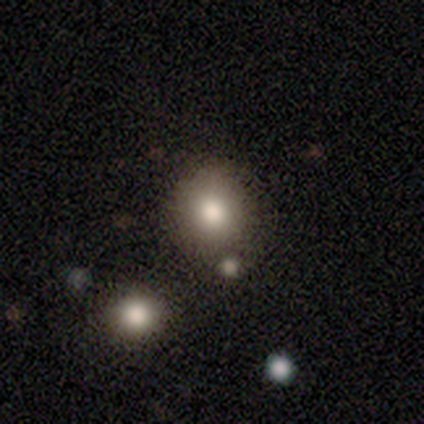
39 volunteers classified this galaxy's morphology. Q: Smooth or featured?
A: smooth (77%); runner-up: star or artifact (13%)
Q: How rounded?
A: round (87%); runner-up: in between (13%)
Q: Merging?
A: none (65%); runner-up: merger (15%)